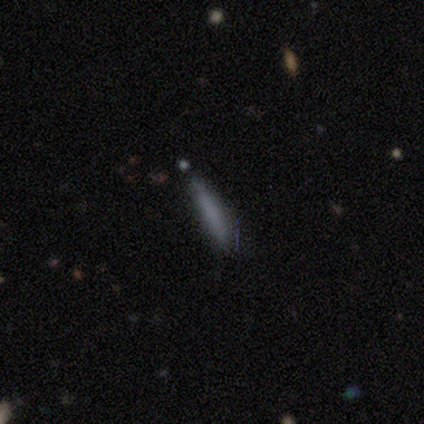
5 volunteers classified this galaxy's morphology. Smooth or featured?
  - smooth: 100% *
  - featured or disk: 0%
  - star or artifact: 0%
How rounded?
  - cigar-shaped: 100% *
  - round: 0%
  - in between: 0%
Merging?
  - none: 80% *
  - merger: 20%
  - minor disturbance: 0%
  - major disturbance: 0%